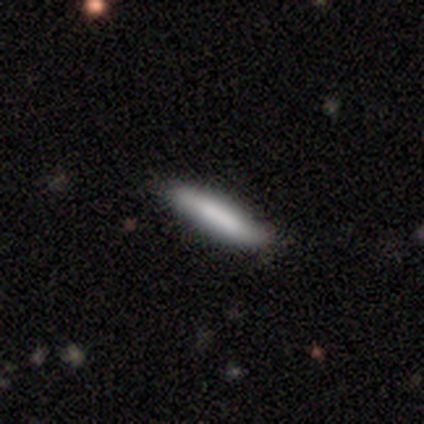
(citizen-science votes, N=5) smooth 100%, featured or disk 0%, star or artifact 0%. Down the decision tree: how rounded — cigar-shaped (80%); merging — none (60%).